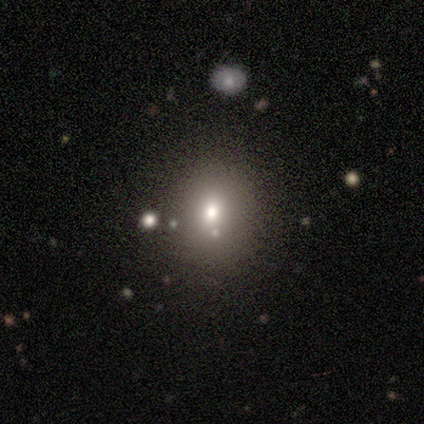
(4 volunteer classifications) Q: Smooth or featured?
A: star or artifact (50%); runner-up: smooth (25%)